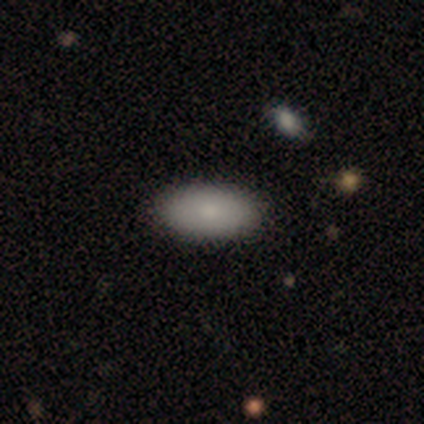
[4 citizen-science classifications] A smooth galaxy with no disk features (75%) that is in between round and cigar-shaped (100%).

Vote fractions:
- Smooth or featured? smooth: 75% / featured or disk: 25% / star or artifact: 0%
- How rounded? in between: 100% / round: 0% / cigar-shaped: 0%
- Merging? none: 75% / minor disturbance: 25% / major disturbance: 0% / merger: 0%